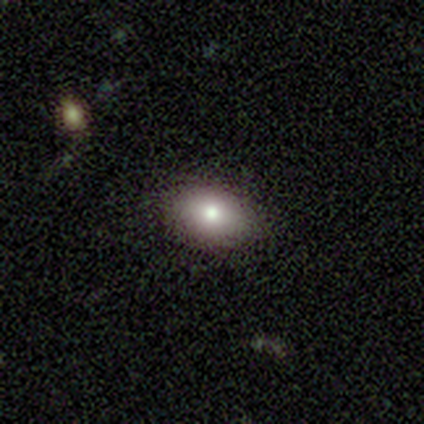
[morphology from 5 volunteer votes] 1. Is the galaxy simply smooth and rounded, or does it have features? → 60% smooth, 40% featured or disk, 0% star or artifact.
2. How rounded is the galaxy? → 67% in between, 33% round, 0% cigar-shaped.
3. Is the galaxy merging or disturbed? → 100% none, 0% minor disturbance, 0% major disturbance, 0% merger.